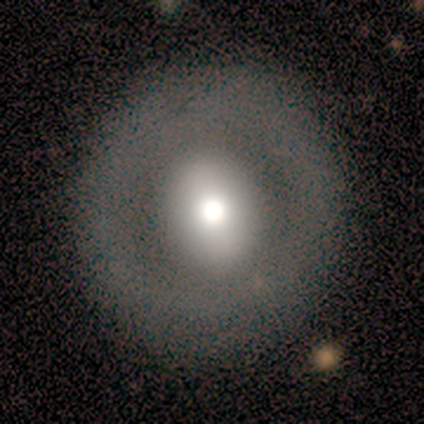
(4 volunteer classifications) Volunteers were most divided on "smooth or featured" (2-way tie): smooth: 50%, featured or disk: 50%, star or artifact: 0%; "how rounded" (2-way tie): round: 50%, in between: 50%, cigar-shaped: 0%. More confident: merging — none (100%).